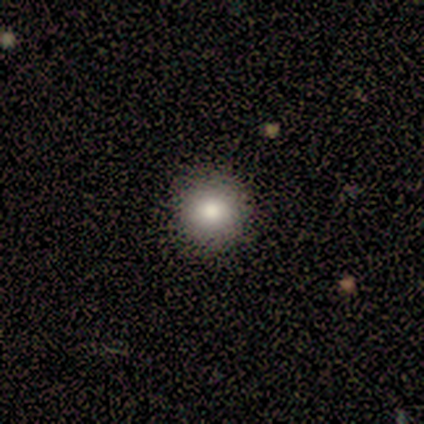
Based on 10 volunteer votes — smooth_or_featured: smooth (p=0.90) [alt: star or artifact p=0.10]
how_rounded: round (p=1.00)
merging: none (p=0.89) [alt: minor disturbance p=0.11]